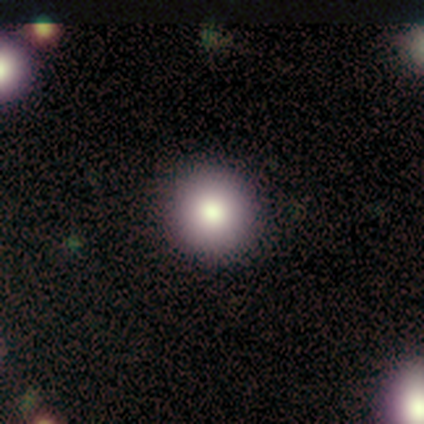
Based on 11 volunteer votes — smooth 73%, star or artifact 18%, featured or disk 9%. Down the decision tree: how rounded — round (100%); merging — none (100%).